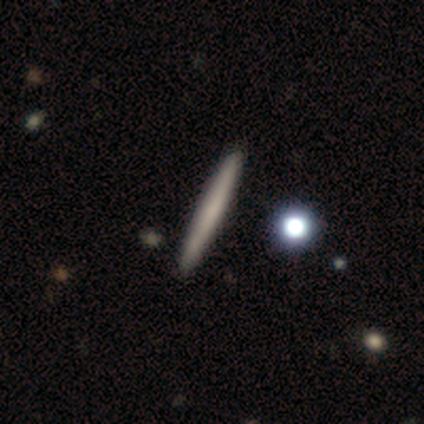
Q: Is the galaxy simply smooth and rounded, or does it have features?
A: smooth — 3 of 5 (60%).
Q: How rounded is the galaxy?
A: cigar-shaped — 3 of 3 (100%).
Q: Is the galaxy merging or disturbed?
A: none — 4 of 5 (80%).